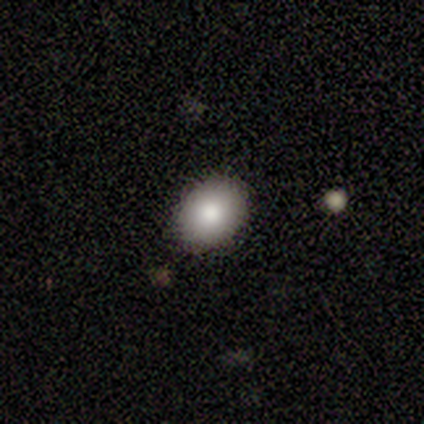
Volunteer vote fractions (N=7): Q: Smooth or featured?
A: smooth (86%); runner-up: star or artifact (14%)
Q: How rounded?
A: in between (83%); runner-up: round (17%)
Q: Merging?
A: none (83%); runner-up: major disturbance (17%)